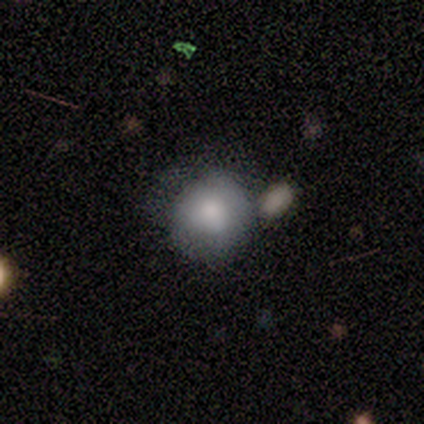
A smooth galaxy with no disk features (84%) that is round (94%). Merging: none (59%).